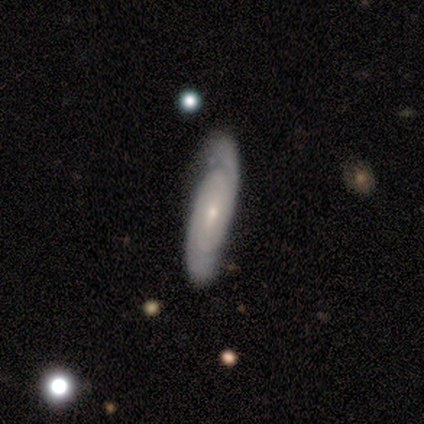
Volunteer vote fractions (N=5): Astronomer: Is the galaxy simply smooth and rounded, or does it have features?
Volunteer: featured or disk — 80%.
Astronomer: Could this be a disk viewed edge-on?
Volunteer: yes — 50%, tied with no at 50%.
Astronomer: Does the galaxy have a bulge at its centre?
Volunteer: none — 50%, tied with rounded at 50%.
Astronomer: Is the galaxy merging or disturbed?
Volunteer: none — 100%.